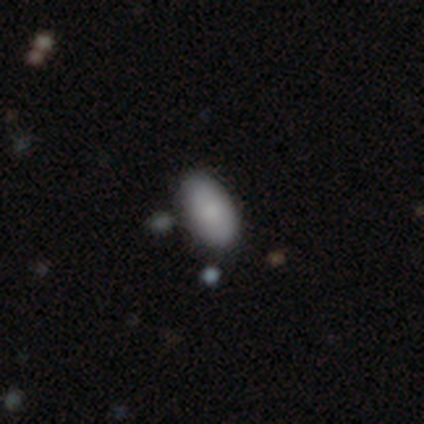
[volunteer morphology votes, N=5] smooth_or_featured: smooth (p=0.60) [alt: featured or disk p=0.20]
how_rounded: in between (p=1.00)
merging: none (p=0.75) [alt: major disturbance p=0.25]